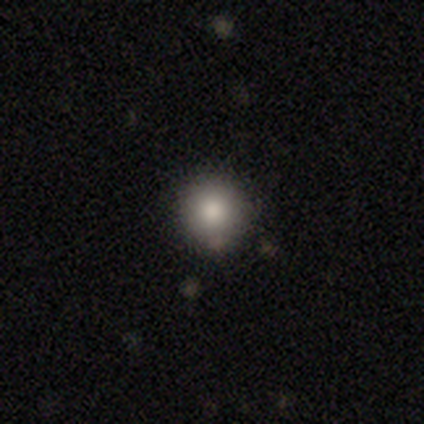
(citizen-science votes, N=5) Smooth or featured? 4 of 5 (80%) said smooth. How rounded? 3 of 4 (75%) said round. Merging? 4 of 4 (100%) said none.